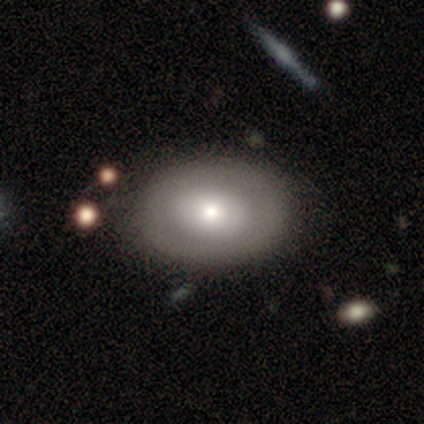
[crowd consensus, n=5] Smooth or featured: smooth — 100%
How rounded: in between — 60% (round — 40%)
Merging: none — 80% (minor disturbance — 20%)